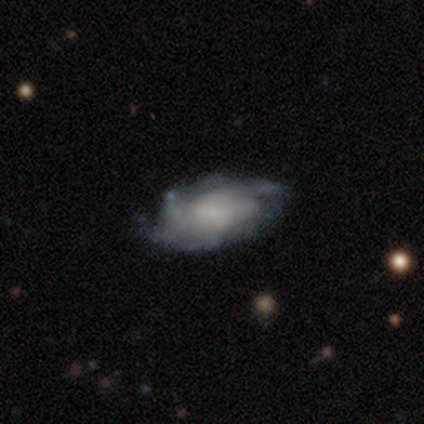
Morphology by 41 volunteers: Q: Smooth or featured?
A: featured or disk (90%); runner-up: smooth (10%)
Q: Edge-on disk?
A: no (95%); runner-up: yes (5%)
Q: Bar?
A: no (60%); runner-up: weak (34%)
Q: Spiral arms?
A: yes (97%); runner-up: no (3%)
Q: Spiral winding?
A: tight (47%); runner-up: medium (29%)
Q: Spiral arm count?
A: can't tell (47%); runner-up: 3 (21%)
Q: Bulge size?
A: small (49%); runner-up: none (40%)
Q: Merging?
A: none (71%); runner-up: minor disturbance (24%)